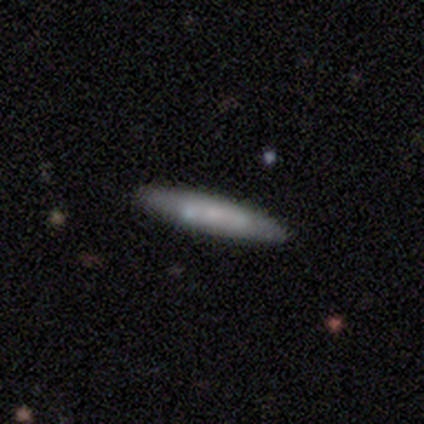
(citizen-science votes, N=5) Overall: smooth (80%). How rounded: cigar-shaped (100%). Merging: none (100%).